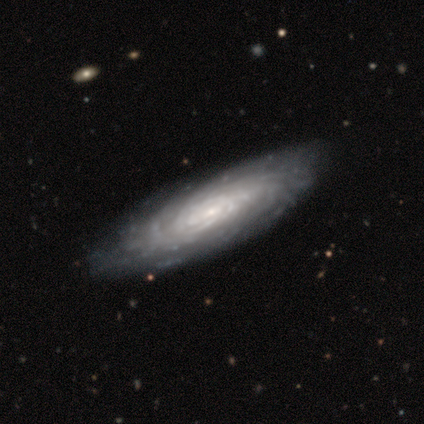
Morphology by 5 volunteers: This appears to be a smooth galaxy with no disk features (40%, tied with featured or disk) that is in between round and cigar-shaped (50%, tied with cigar-shaped). Merging: none (100%).